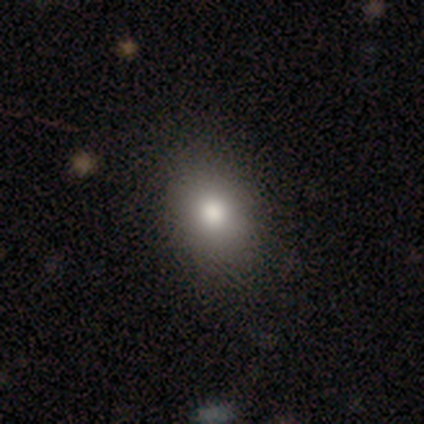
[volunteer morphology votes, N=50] This appears to be a smooth galaxy with no disk features (82%) that is in between round and cigar-shaped (71%). Merging: none (89%).